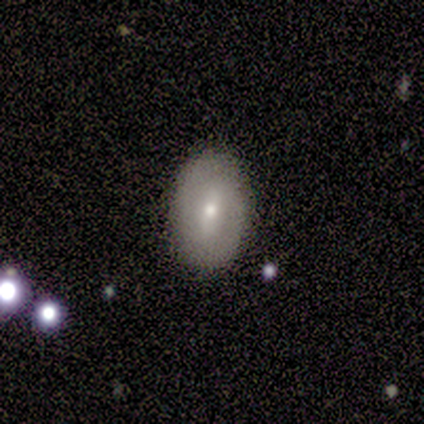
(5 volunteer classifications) featured or disk 80%, smooth 20%, star or artifact 0%. Down the decision tree: edge-on disk — no (100%); bar — weak (75%); spiral arms — no (75%); bulge size — moderate (50%, tied with small); merging — none (100%).